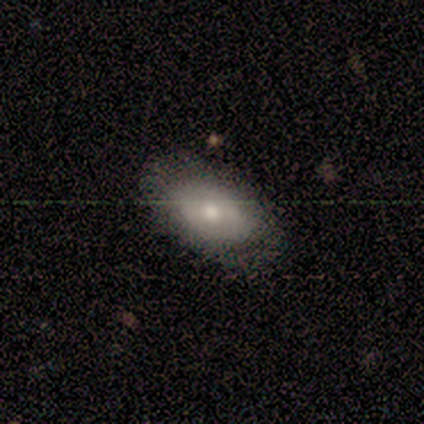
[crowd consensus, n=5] This appears to be a smooth galaxy with no disk features (60%) that is in between round and cigar-shaped (100%). Merging: none (80%).